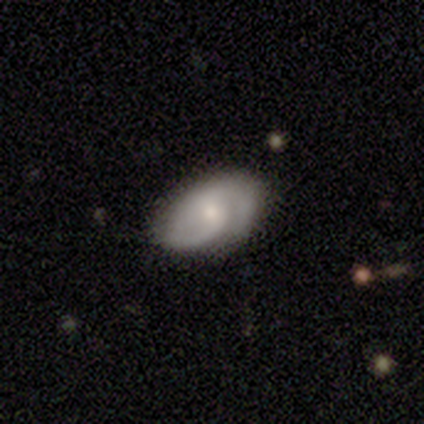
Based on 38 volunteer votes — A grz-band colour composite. It shows a featured or disk galaxy (63%) with no bar (64%), 2 (67%) tight (48%) spiral arms (95%) and a small central bulge (59%). Merging: none (77%).